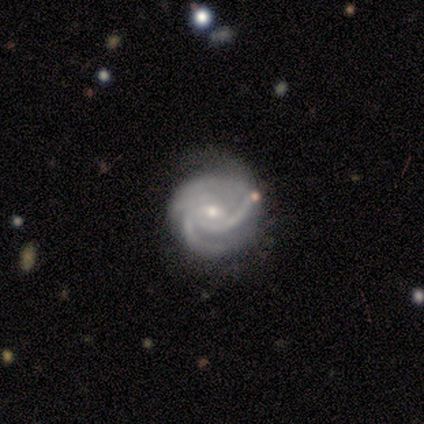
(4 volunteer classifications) Smooth or featured? 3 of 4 (75%) said featured or disk. Edge-on disk? 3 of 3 (100%) said no. Bar? 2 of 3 (67%) said weak. Spiral arms? 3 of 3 (100%) said yes. Spiral winding? 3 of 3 (100%) said tight. Spiral arm count? 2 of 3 (67%) said 3. Bulge size? 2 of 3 (67%) said small. Merging? 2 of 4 (50%) said major disturbance.